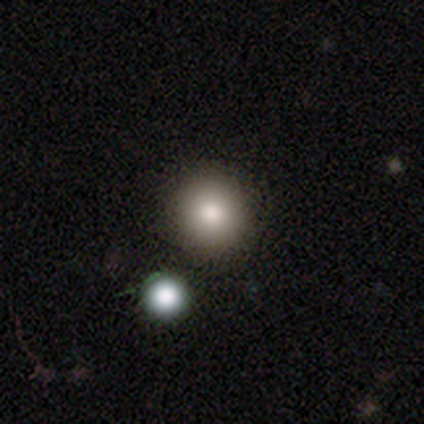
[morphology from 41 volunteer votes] A smooth galaxy with no disk features (68%) that is round (100%).

Vote fractions:
- Smooth or featured? smooth: 68% / star or artifact: 22% / featured or disk: 10%
- How rounded? round: 100% / in between: 0% / cigar-shaped: 0%
- Merging? none: 88% / minor disturbance: 12% / major disturbance: 0% / merger: 0%